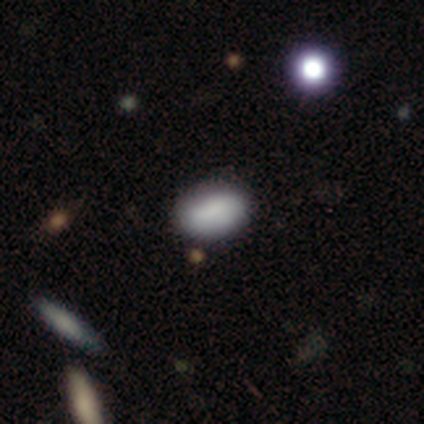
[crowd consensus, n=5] Q: Smooth or featured?
A: smooth (80%); runner-up: star or artifact (20%)
Q: How rounded?
A: in between (75%); runner-up: round (25%)
Q: Merging?
A: none (75%); runner-up: major disturbance (25%)